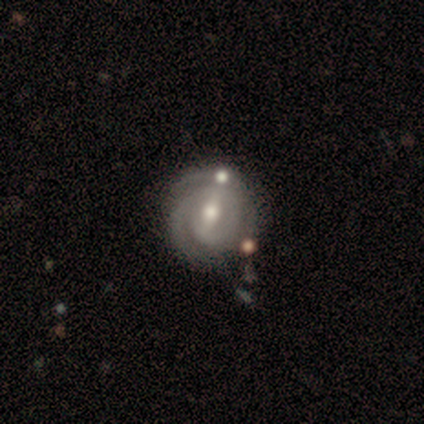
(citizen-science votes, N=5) This appears to be a featured or disk galaxy (100%) with a strong bar (40%, tied with weak), 2 (100%) tight (80%) spiral arms (100%) and a moderate central bulge (80%). Merging: none (40%, tied with merger).